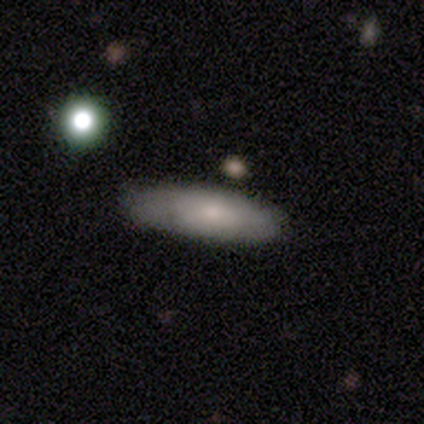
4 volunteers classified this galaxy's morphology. Overall: smooth (75%). How rounded: cigar-shaped (67%; in between 33%). Merging: none (75%).